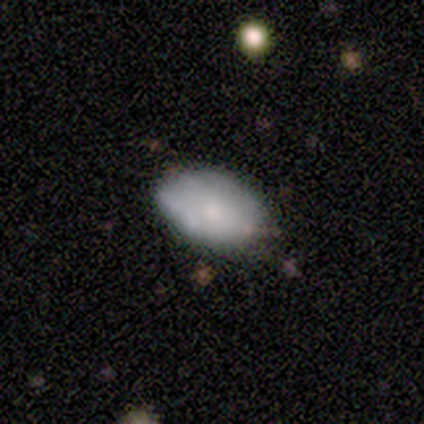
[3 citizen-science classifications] Smooth or featured? 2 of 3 (67%) said smooth. How rounded? 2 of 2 (100%) said in between. Merging? 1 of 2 (50%, tied with minor disturbance) said none.